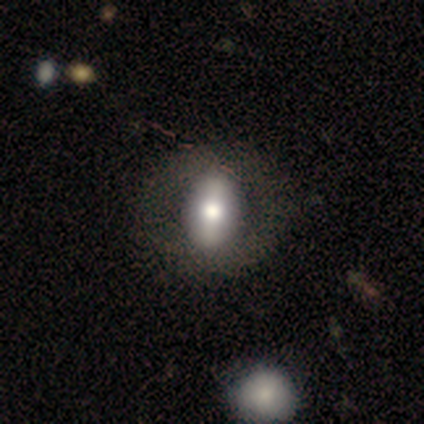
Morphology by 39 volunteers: smooth 51%, featured or disk 44%, star or artifact 5%. Down the decision tree: how rounded — in between (70%); merging — none (59%).